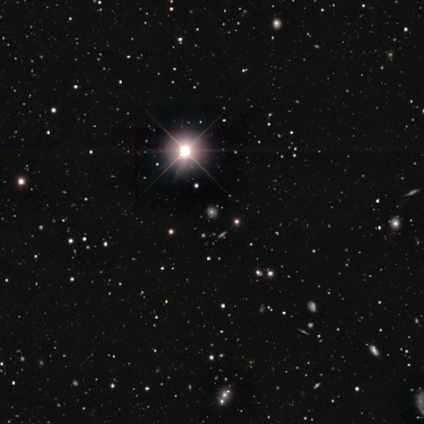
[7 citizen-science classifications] Morphology: type=star or artifact (86%).